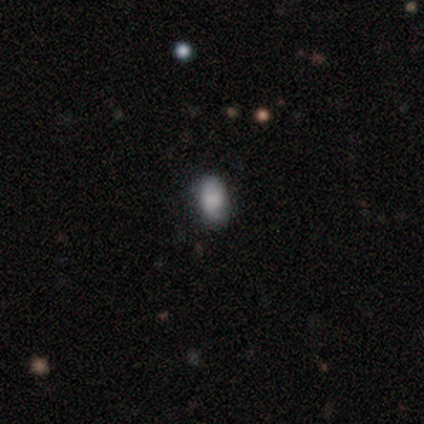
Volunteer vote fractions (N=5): smooth_or_featured: smooth (p=0.60) [alt: featured or disk p=0.20]
how_rounded: in between (p=1.00)
merging: none (p=0.75) [alt: major disturbance p=0.25]